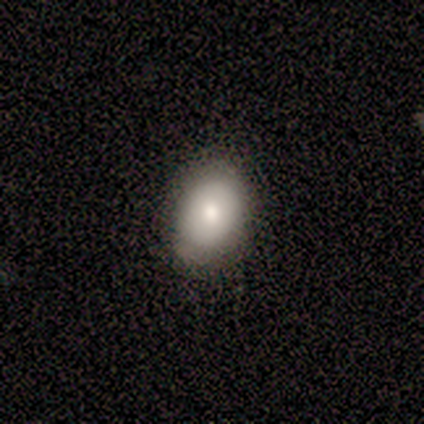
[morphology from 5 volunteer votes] Smooth or featured? 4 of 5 (80%) said smooth. How rounded? 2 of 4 (50%, tied with in between) said round. Merging? 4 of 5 (80%) said none.